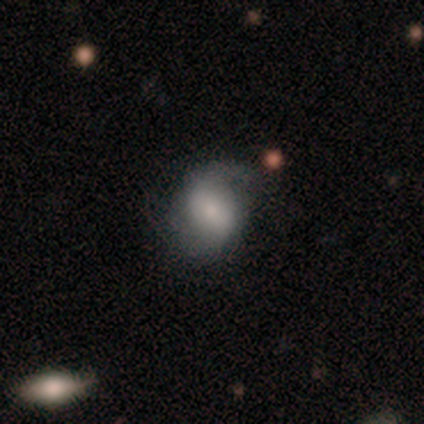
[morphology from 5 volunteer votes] This appears to be a featured or disk galaxy (60%) with a strong bar (50%, tied with weak), 2 (100%) medium (100%) spiral arms (100%) and a moderate central bulge (50%, tied with small). Merging: none (80%).